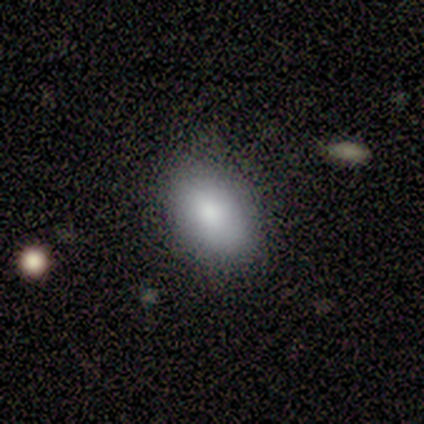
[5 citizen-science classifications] Overall: smooth (100%). How rounded: in between (80%). Merging: none (100%).